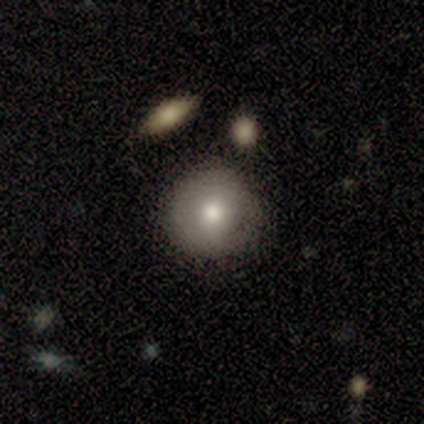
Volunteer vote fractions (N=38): Morphology: type=smooth (66%); roundness=round (92%); merging=none (86%).